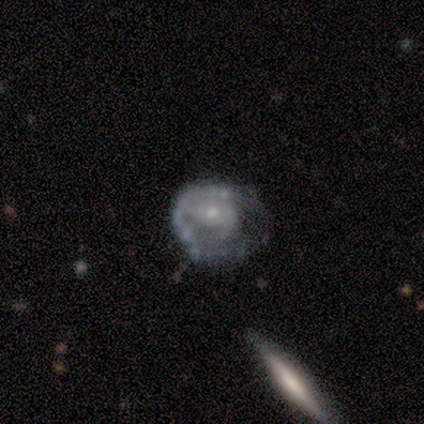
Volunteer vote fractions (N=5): Q: Smooth or featured?
A: smooth (60%); runner-up: featured or disk (40%)
Q: How rounded?
A: round (67%); runner-up: in between (33%)
Q: Merging?
A: major disturbance (60%); runner-up: none (20%)